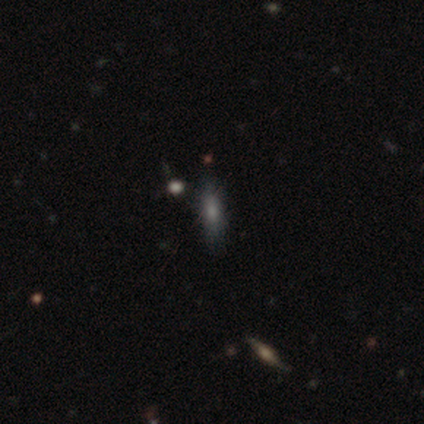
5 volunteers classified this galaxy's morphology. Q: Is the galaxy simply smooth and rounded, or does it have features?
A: smooth — 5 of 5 (100%).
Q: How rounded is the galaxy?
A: in between — 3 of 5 (60%).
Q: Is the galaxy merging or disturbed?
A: none — 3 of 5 (60%).